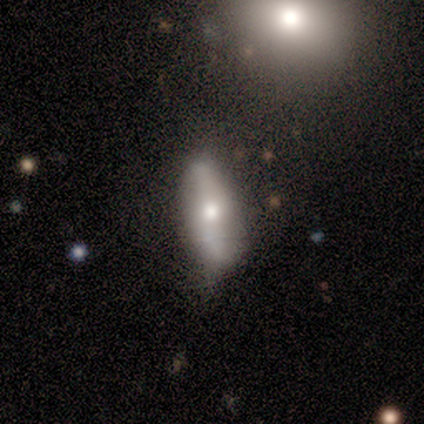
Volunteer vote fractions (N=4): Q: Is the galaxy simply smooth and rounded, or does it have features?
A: smooth — 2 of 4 (50%).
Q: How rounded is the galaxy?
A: cigar-shaped — 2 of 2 (100%).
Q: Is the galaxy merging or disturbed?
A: none — 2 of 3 (67%).